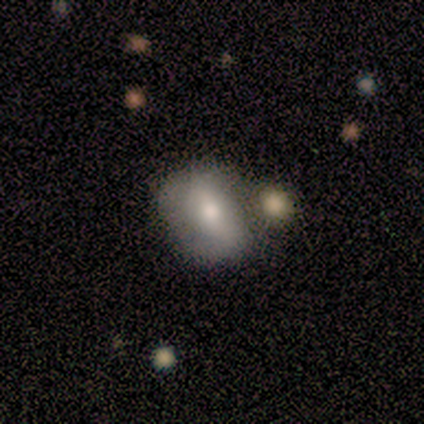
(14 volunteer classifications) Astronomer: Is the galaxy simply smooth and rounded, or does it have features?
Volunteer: smooth — 57% (runner-up: featured or disk, 43%).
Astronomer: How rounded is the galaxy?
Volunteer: round — 62%.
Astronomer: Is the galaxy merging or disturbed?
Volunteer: merger — 50% (runner-up: none, 43%).